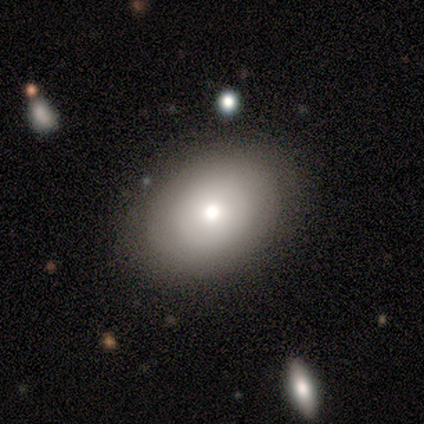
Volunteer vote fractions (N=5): This appears to be a smooth galaxy with no disk features (100%) that is in between round and cigar-shaped (80%). Merging: none (60%).